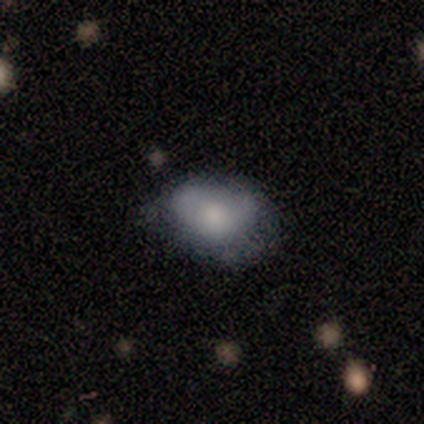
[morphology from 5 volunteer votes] smooth_or_featured: smooth (p=0.40) [tied with: featured or disk p=0.40]
how_rounded: in between (p=1.00)
merging: none (p=0.75) [alt: minor disturbance p=0.25]